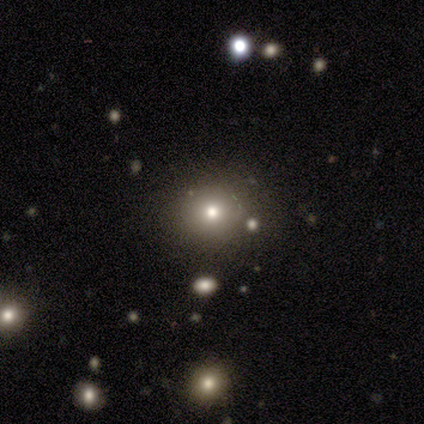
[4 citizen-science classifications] Smooth or featured? smooth (75%)
How rounded? round (67%)
Merging? none (100%)